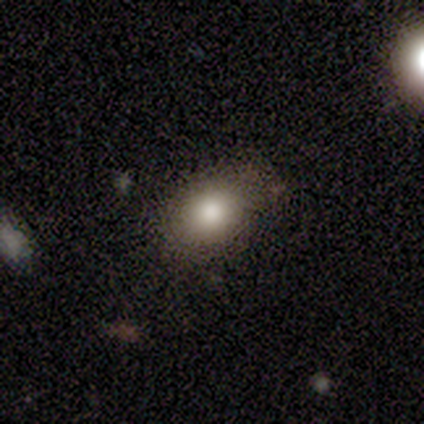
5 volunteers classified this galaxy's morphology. Smooth or featured? 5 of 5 (100%) said smooth. How rounded? 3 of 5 (60%) said round. Merging? 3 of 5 (60%) said none.